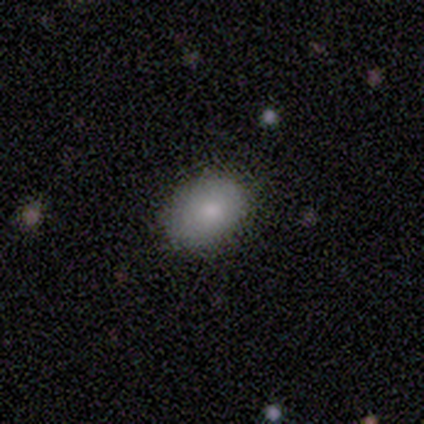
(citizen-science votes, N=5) smooth_or_featured: smooth (p=1.00)
how_rounded: in between (p=1.00)
merging: none (p=1.00)